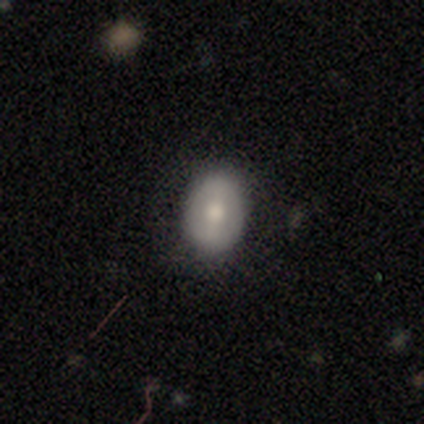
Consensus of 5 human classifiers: Smooth or featured: smooth — 80% (featured or disk — 20%)
How rounded: in between — 100%
Merging: none — 60% (minor disturbance — 20%)